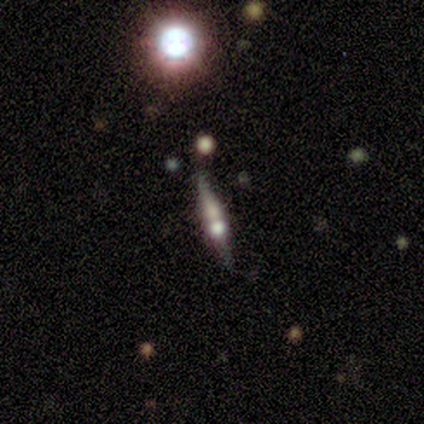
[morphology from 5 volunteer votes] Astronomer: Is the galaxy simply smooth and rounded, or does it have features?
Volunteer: featured or disk — 80%.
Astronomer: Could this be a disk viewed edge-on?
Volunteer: yes — 75%.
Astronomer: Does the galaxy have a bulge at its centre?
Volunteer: rounded — 100%.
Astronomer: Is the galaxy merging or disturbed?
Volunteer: none — 60%.